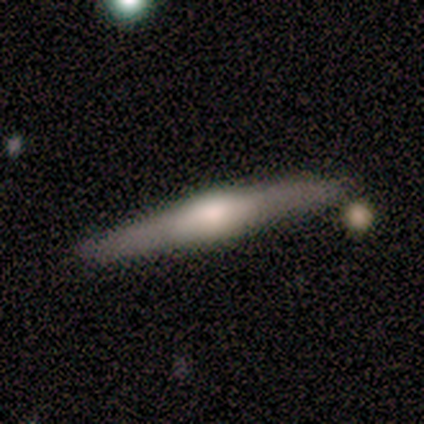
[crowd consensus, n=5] This is likely a featured or disk galaxy (60%). It is clearly viewed edge-on (100%). Edge-on bulge: likely rounded (67%). Merging: clearly none (80%).